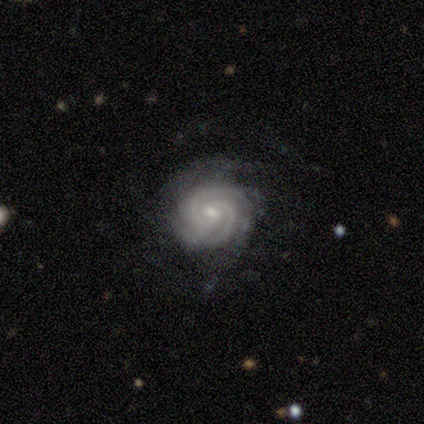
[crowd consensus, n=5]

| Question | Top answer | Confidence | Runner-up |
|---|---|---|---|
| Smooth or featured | featured or disk | 100% | — |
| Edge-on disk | no | 100% | — |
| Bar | no | 80% | weak (20%) |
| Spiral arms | yes | 100% | — |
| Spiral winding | tight | 80% | loose (20%) |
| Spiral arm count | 2 | 80% | 3 (20%) |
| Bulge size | small | 60% | moderate (40%) |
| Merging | none | 100% | — |